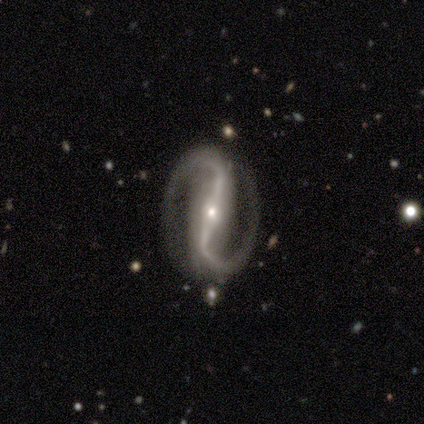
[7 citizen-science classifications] Smooth or featured?
  - featured or disk: 100% *
  - smooth: 0%
  - star or artifact: 0%
Edge-on disk?
  - no: 86% *
  - yes: 14%
Bar?
  - strong: 100% *
  - weak: 0%
  - no: 0%
Spiral arms?
  - yes: 100% *
  - no: 0%
Spiral winding?
  - loose: 83% *
  - tight: 17%
  - medium: 0%
Spiral arm count?
  - 2: 100% *
  - 1: 0%
  - 3: 0%
  - 4: 0%
  - more than 4: 0%
  - can't tell: 0%
Bulge size?
  - small: 67% *
  - moderate: 33%
  - dominant: 0%
  - large: 0%
  - none: 0%
Merging?
  - none: 100% *
  - minor disturbance: 0%
  - major disturbance: 0%
  - merger: 0%